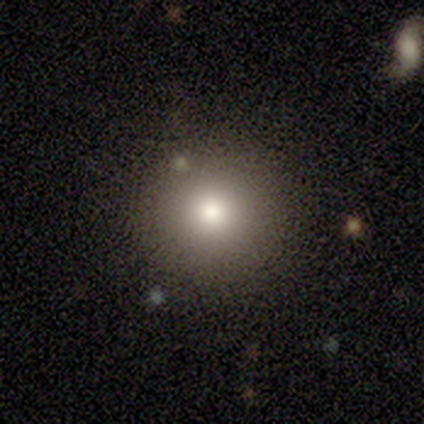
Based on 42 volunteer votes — Volunteers were most divided on "smooth or featured": smooth: 74%, featured or disk: 17%, star or artifact: 10%. More confident: how rounded — round (100%); merging — none (89%).